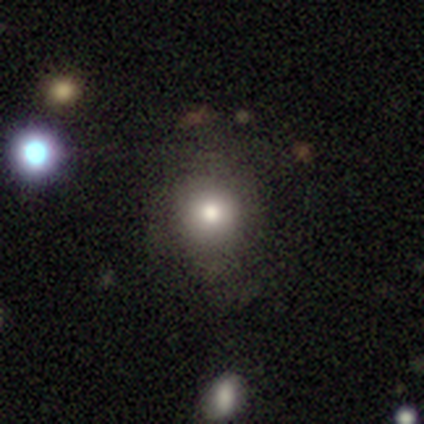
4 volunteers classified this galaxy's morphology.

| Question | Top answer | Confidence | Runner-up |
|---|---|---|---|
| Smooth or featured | smooth | 75% | star or artifact (25%) |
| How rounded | round | 100% | — |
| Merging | none | 100% | — |